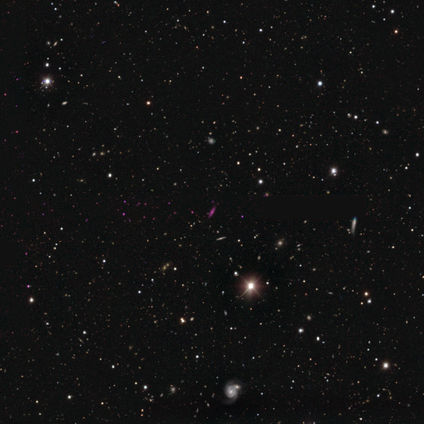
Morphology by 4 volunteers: type=star or artifact (75%).